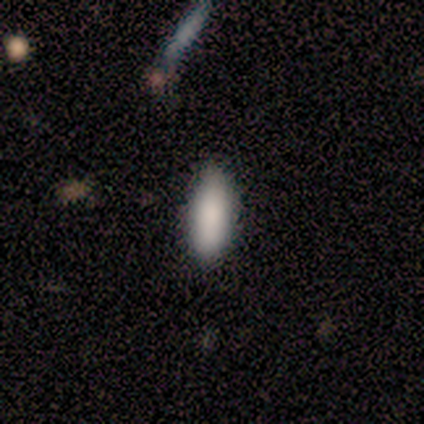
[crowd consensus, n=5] smooth_or_featured: smooth (p=1.00)
how_rounded: in between (p=1.00)
merging: none (p=1.00)